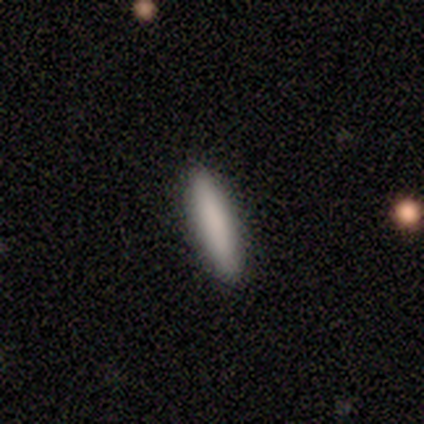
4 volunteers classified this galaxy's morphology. Smooth or featured? 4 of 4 (100%) said smooth. How rounded? 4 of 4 (100%) said cigar-shaped. Merging? 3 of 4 (75%) said none.